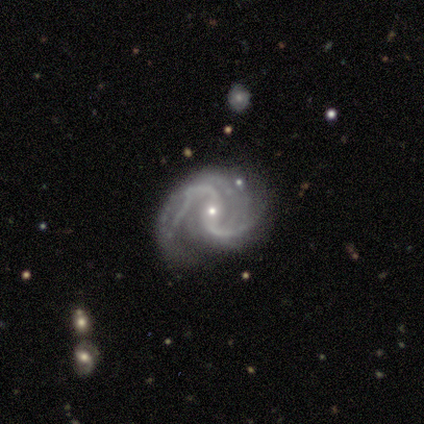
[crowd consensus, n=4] Morphology: type=featured or disk (100%); edge-on=no (100%); bar=no (50%); spiral arms=yes (100%); winding=loose (75%); arm count=2 (100%); bulge=small (100%); merging=none (100%).